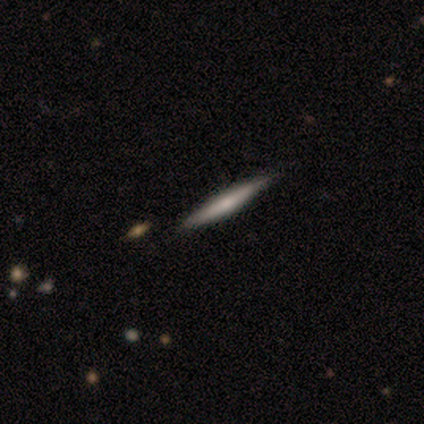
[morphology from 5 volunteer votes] Smooth or featured? featured or disk (80%)
Edge-on disk? yes (100%)
Edge-on bulge? rounded (75%)
Merging? none (100%)